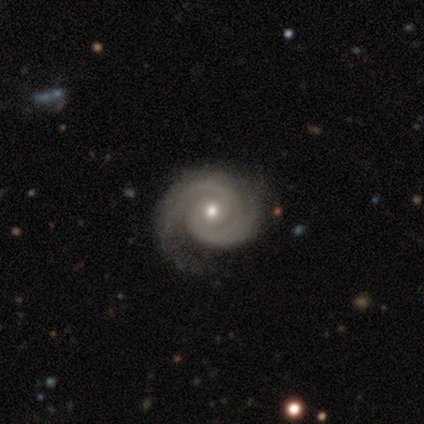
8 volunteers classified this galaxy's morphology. Smooth or featured: featured or disk — 88% (star or artifact — 12%)
Edge-on disk: no — 100%
Bar: no — 100%
Spiral arms: yes — 100%
Spiral winding: medium — 86% (tight — 14%)
Spiral arm count: 2 — 86% (can't tell — 14%)
Bulge size: moderate — 100%
Merging: none — 57% (minor disturbance — 29%)